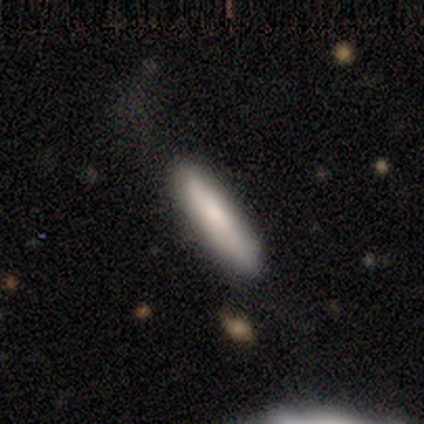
Smooth or featured? 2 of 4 (50%) said smooth. How rounded? 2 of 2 (100%) said cigar-shaped. Merging? 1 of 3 (33%, tied with minor disturbance and merger) said none.